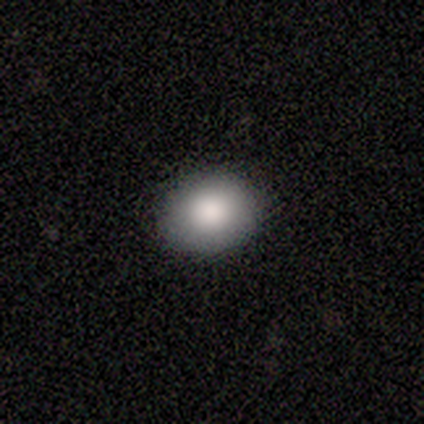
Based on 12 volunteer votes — Overall: smooth (92%). How rounded: in between (64%; round 36%). Merging: none (92%).